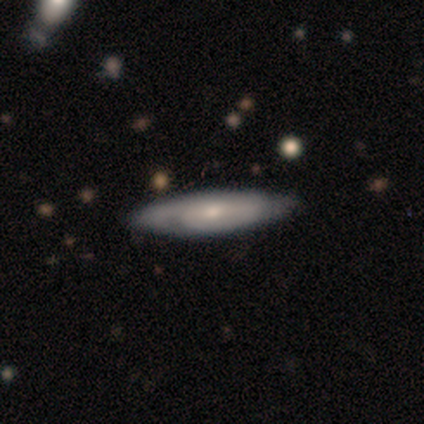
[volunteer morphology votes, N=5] This is clearly a featured or disk galaxy (80%). It is likely not viewed edge-on (75%). Bar: clearly no (100%). Spiral arm pattern: likely yes (67%). Spiral arm count: clearly can't tell (100%). Spiral winding: possibly tight (50%, tied with medium). Central bulge: likely moderate (67%). Merging: likely none (60%).